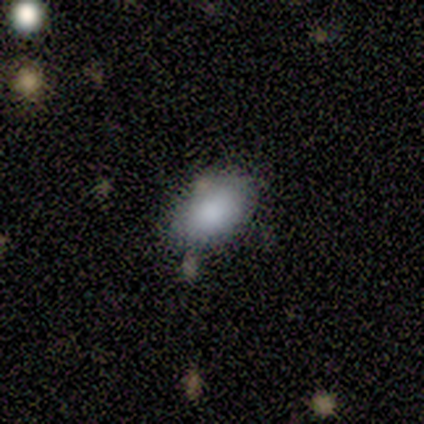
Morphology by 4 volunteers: Smooth or featured?
  - smooth: 100% *
  - featured or disk: 0%
  - star or artifact: 0%
How rounded?
  - in between: 100% *
  - round: 0%
  - cigar-shaped: 0%
Merging?
  - none: 50% * (tied)
  - minor disturbance: 50% * (tied)
  - major disturbance: 0%
  - merger: 0%